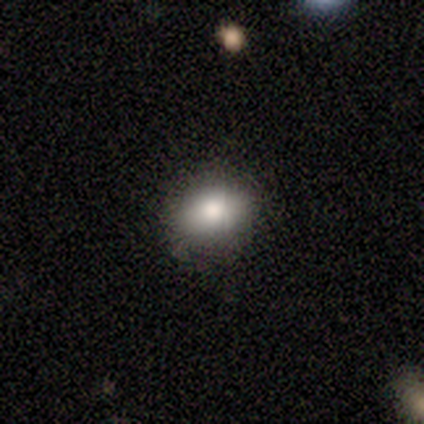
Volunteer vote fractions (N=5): A smooth galaxy with no disk features (60%) that is round (33%, tied with in between and cigar-shaped). Merging: none (100%).